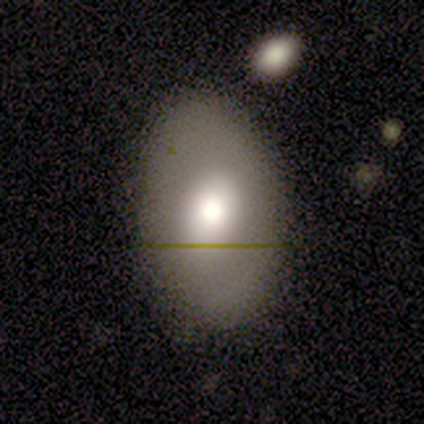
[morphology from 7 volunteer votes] This appears to be a smooth galaxy with no disk features (57%) that is in between round and cigar-shaped (100%). Merging: none (67%).